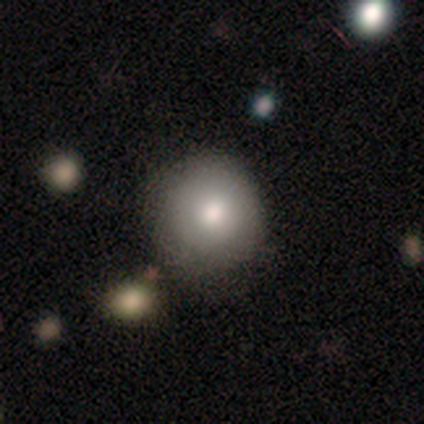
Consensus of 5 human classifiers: Smooth or featured: smooth — 80% (featured or disk — 20%)
How rounded: round — 100%
Merging: none — 60% (minor disturbance — 20%)